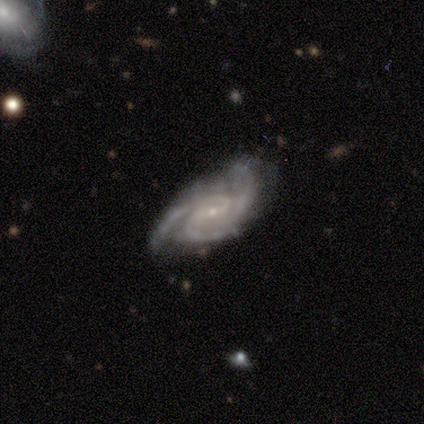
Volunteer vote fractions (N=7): smooth-or-featured: featured or disk: 86% | star or artifact: 14% | smooth: 0%
  disk-edge-on: no: 83% | yes: 17%
    bar: weak: 80% | no: 20% | strong: 0%
    has-spiral-arms: yes: 100% | no: 0%
      spiral-winding: medium: 80% | loose: 20% | tight: 0%
      spiral-arm-count: 2: 40% (tied) | 3: 40% (tied) | 4: 20% | 1: 0% | more than 4: 0% | can't tell: 0%
    bulge-size: small: 100% | dominant: 0% | large: 0% | moderate: 0% | none: 0%
  merging: none: 67% | minor disturbance: 33% | major disturbance: 0% | merger: 0%